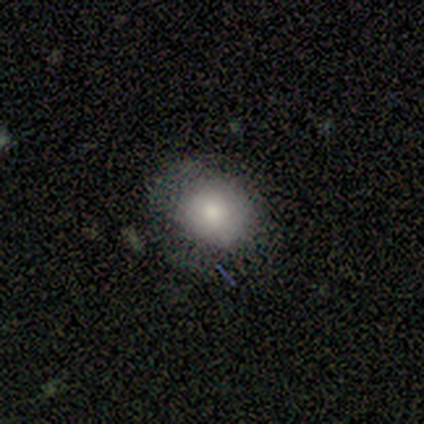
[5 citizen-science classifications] Morphology: type=smooth (60%); roundness=in between (67%); merging=none (75%).